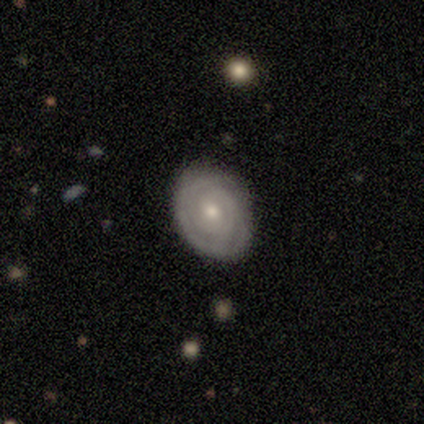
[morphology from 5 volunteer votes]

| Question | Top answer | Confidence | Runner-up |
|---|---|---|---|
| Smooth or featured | featured or disk | 60% | smooth (40%) |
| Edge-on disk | no | 100% | — |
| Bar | no | 100% | — |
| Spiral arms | yes | 100% | — |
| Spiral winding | tight | 100% | — |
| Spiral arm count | can't tell | 67% | 3 (33%) |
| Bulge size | moderate | 67% | small (33%) |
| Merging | none | 100% | — |